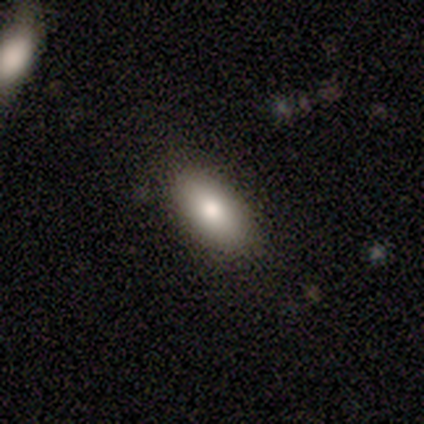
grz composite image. It shows a smooth galaxy with no disk features (80%) that is in between round and cigar-shaped (75%). Merging: none (75%).